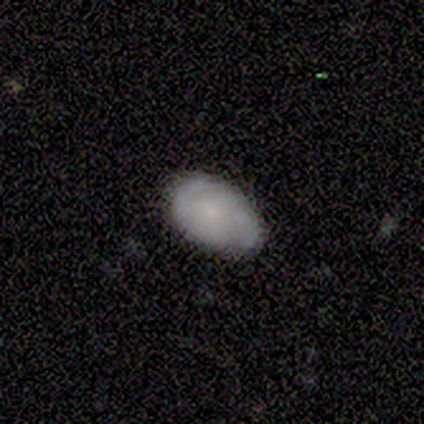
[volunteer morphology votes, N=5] smooth-or-featured: smooth: 60% | featured or disk: 20% | star or artifact: 20%
  how-rounded: in between: 100% | round: 0% | cigar-shaped: 0%
  merging: none: 75% | minor disturbance: 25% | major disturbance: 0% | merger: 0%